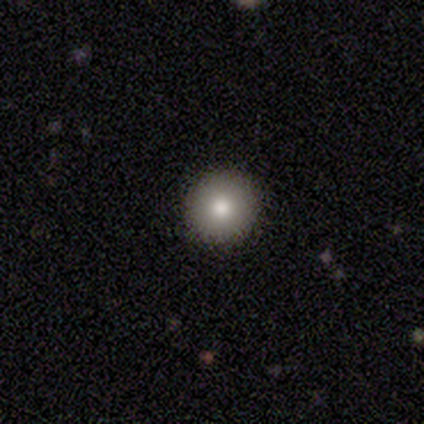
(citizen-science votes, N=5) Q: Smooth or featured?
A: smooth (80%); runner-up: featured or disk (20%)
Q: How rounded?
A: round (100%)
Q: Merging?
A: none (100%)